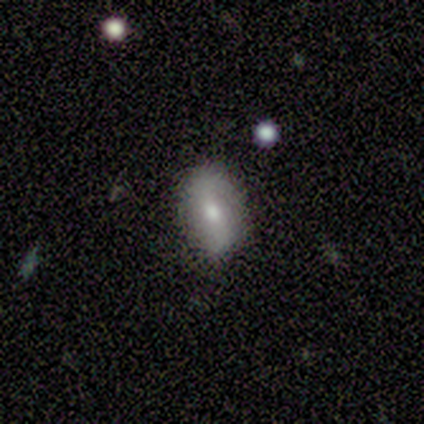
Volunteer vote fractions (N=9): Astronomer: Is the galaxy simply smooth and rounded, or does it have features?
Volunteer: smooth — 56% (runner-up: featured or disk, 44%).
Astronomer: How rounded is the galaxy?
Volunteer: in between — 100%.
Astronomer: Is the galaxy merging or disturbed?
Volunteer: none — 78%.